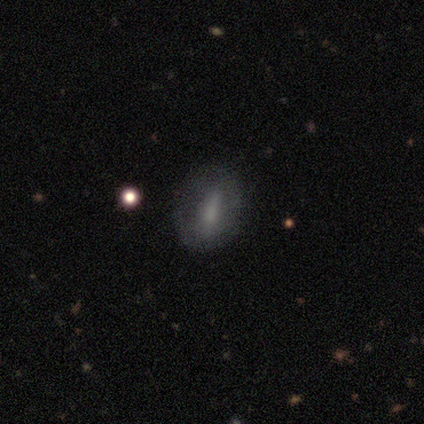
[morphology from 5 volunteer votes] featured or disk 60%, smooth 40%, star or artifact 0%. Down the decision tree: edge-on disk — no (100%); bar — strong (100%); spiral arms — no (67%); bulge size — moderate (33%, tied with small and none); merging — none (80%).